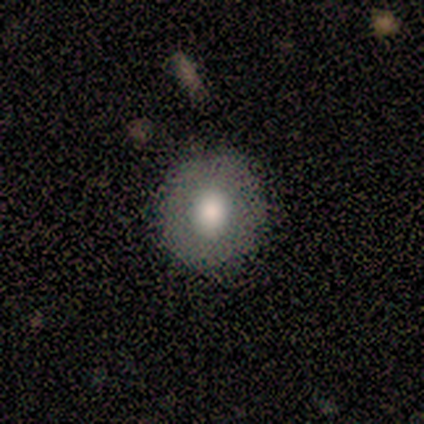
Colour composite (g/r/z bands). It shows a featured or disk galaxy (60%) with no bar (100%), no spiral arms (100%) and a large central bulge (33%, tied with moderate and small). Merging: none (100%).